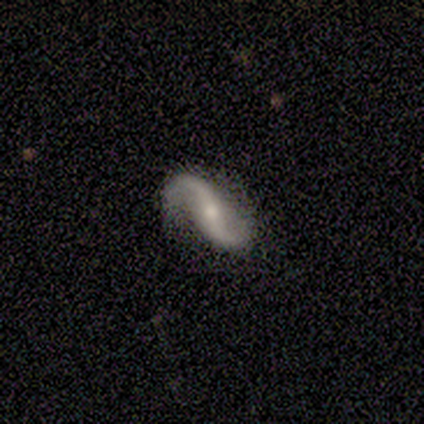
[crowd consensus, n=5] This appears to be a featured or disk galaxy (60%) with no bar (67%), 2 (100%) loose (67%) spiral arms (100%) and a moderate central bulge (67%). Merging: none (100%).